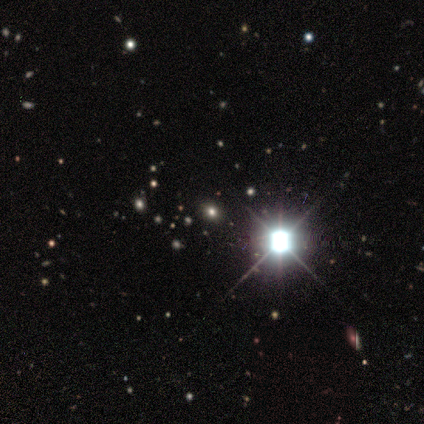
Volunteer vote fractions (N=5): A star or artifact, not a galaxy (80%).